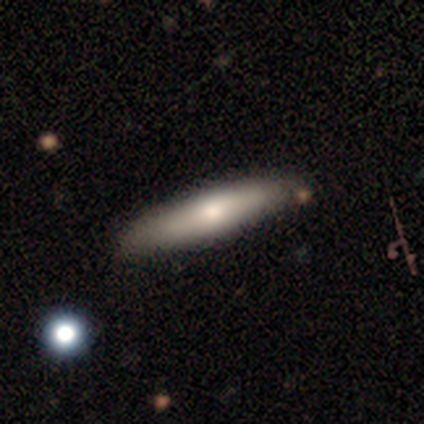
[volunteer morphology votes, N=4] Q: Smooth or featured?
A: smooth (50%); runner-up: featured or disk (25%)
Q: How rounded?
A: cigar-shaped (100%)
Q: Merging?
A: none (100%)